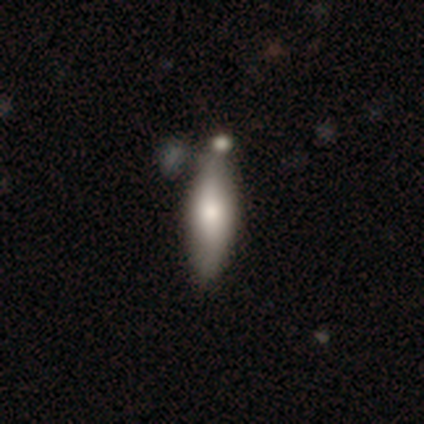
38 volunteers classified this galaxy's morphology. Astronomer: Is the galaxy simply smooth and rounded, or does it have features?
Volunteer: smooth — 68%.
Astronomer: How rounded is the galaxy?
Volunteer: in between — 54% (runner-up: cigar-shaped, 46%).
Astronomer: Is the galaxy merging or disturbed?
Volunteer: none — 50% (runner-up: merger, 28%).